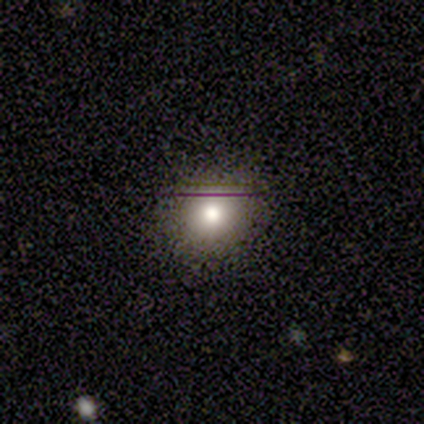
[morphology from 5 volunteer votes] Smooth or featured?
  - smooth: 60% *
  - featured or disk: 40%
  - star or artifact: 0%
How rounded?
  - round: 100% *
  - in between: 0%
  - cigar-shaped: 0%
Merging?
  - none: 100% *
  - minor disturbance: 0%
  - major disturbance: 0%
  - merger: 0%